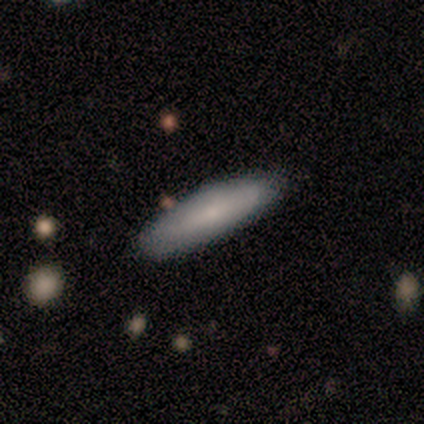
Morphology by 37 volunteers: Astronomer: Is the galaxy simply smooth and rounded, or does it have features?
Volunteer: smooth — 86%.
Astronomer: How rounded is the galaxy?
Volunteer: cigar-shaped — 69%.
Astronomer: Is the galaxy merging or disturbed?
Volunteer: none — 86%.